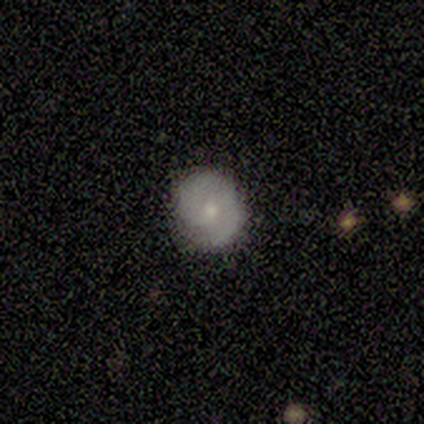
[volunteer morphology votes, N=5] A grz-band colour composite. It shows a smooth galaxy with no disk features (60%) that is round (100%). Merging: none (100%).